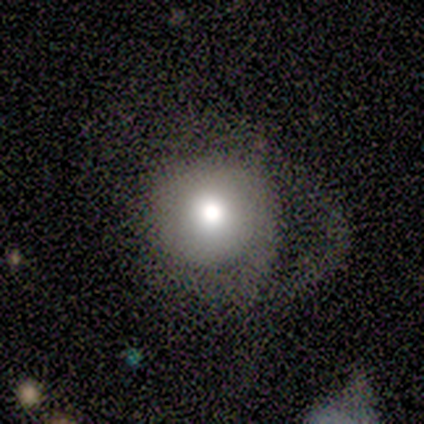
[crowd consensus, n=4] Smooth or featured: smooth — 75% (featured or disk — 25%)
How rounded: round — 100%
Merging: none — 75% (major disturbance — 25%)